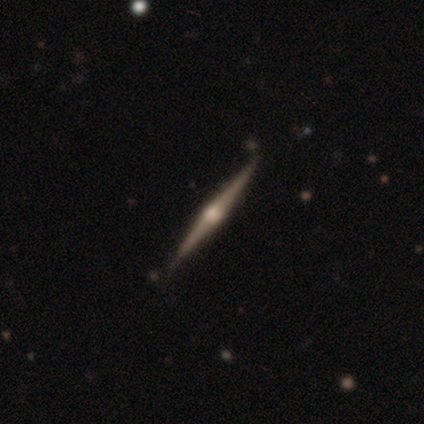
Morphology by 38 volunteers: type=featured or disk (89%); edge-on=yes (94%); edge-on bulge=rounded (88%); merging=none (92%).